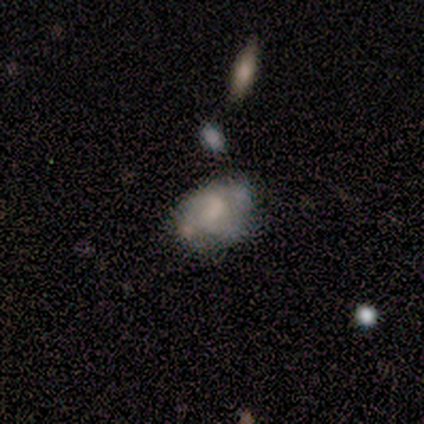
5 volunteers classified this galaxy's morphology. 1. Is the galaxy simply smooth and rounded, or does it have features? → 40% smooth (tied), 40% featured or disk (tied), 20% star or artifact.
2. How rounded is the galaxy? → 50% round (tied), 50% in between (tied), 0% cigar-shaped.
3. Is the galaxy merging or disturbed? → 50% none, 25% minor disturbance, 25% major disturbance, 0% merger.